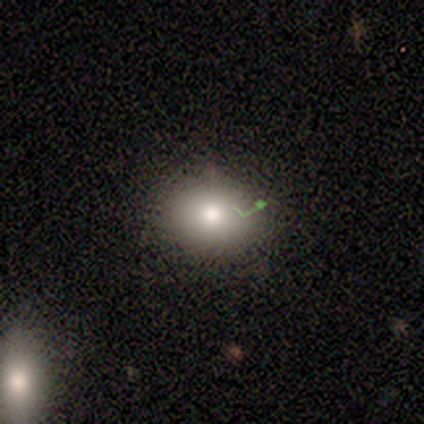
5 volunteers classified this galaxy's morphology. This is likely a smooth galaxy (60%). How rounded: likely round (67%). Merging: likely none (75%).